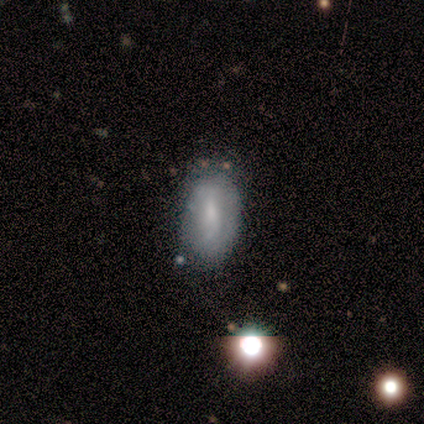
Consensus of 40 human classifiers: Volunteers were most divided on "smooth or featured" (2-way tie): smooth: 50%, featured or disk: 50%, star or artifact: 0%. More confident: how rounded — in between (95%); merging — none (78%).